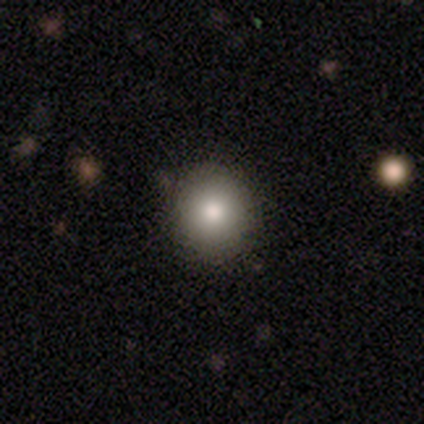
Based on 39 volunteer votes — Smooth or featured? smooth (77%)
How rounded? round (90%)
Merging? none (49%)